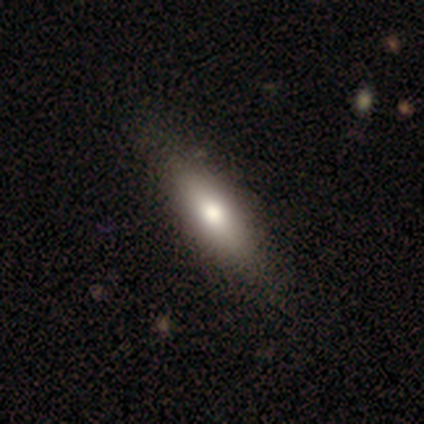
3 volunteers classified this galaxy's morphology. Smooth or featured?
  - smooth: 67% *
  - star or artifact: 33%
  - featured or disk: 0%
How rounded?
  - in between: 50% * (tied)
  - cigar-shaped: 50% * (tied)
  - round: 0%
Merging?
  - none: 50% * (tied)
  - minor disturbance: 50% * (tied)
  - major disturbance: 0%
  - merger: 0%